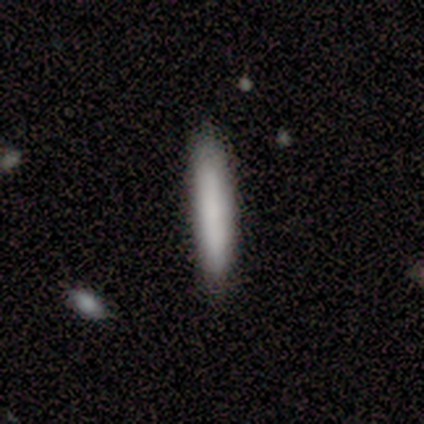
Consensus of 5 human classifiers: Morphology: type=smooth (80%); roundness=cigar-shaped (100%); merging=none (80%).